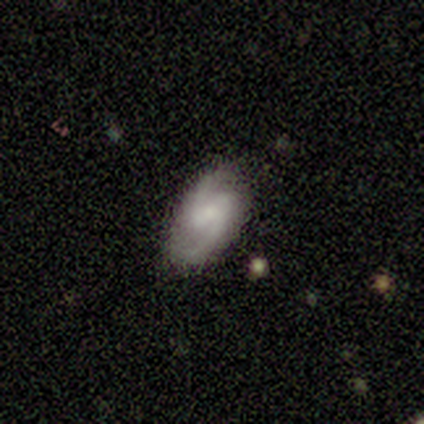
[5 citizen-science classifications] Smooth or featured? featured or disk (100%)
Edge-on disk? no (100%)
Bar? strong (40%, tied with weak)
Spiral arms? yes (80%)
Spiral winding? medium (75%)
Spiral arm count? 2 (100%)
Bulge size? small (60%)
Merging? none (80%)